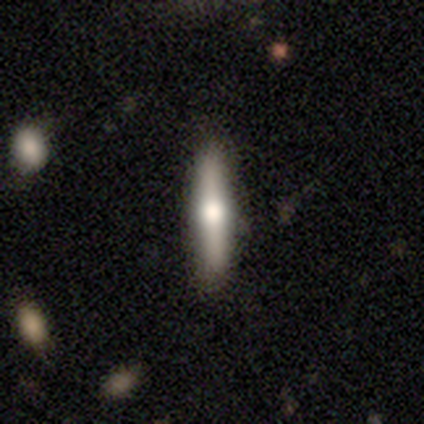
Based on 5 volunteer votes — Smooth or featured? 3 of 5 (60%) said smooth. How rounded? 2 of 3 (67%) said cigar-shaped. Merging? 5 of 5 (100%) said none.